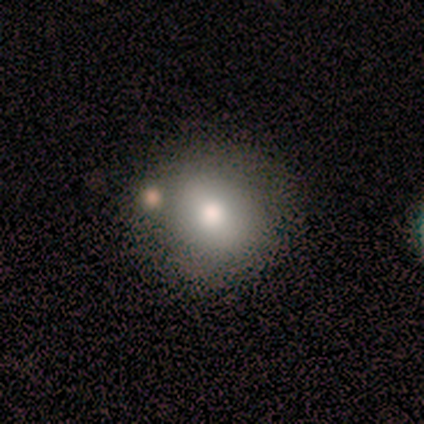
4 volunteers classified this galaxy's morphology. A smooth galaxy with no disk features (50%) that is round (50%, tied with in between). Merging: none (100%).